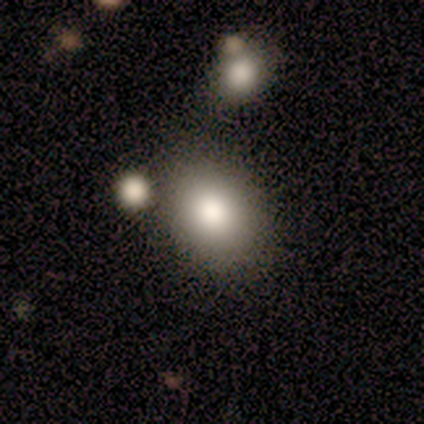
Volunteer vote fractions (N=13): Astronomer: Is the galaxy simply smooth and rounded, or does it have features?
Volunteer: smooth — 92%.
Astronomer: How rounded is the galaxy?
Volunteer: round — 50%, tied with in between at 50%.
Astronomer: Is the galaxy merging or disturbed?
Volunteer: none — 58%.